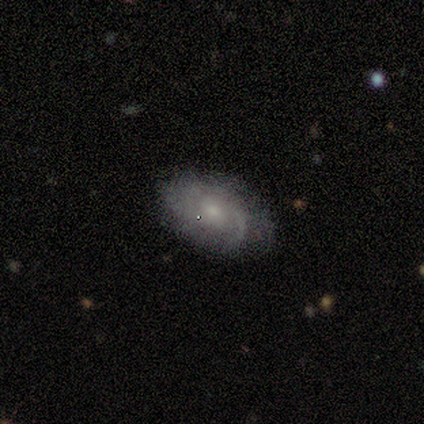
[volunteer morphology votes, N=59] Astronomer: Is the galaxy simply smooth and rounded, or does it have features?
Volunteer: featured or disk — 58% (runner-up: smooth, 36%).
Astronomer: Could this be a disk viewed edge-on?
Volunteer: no — 97%.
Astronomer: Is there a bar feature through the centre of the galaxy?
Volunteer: no — 76%.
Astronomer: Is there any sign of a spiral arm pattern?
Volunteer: yes — 97%.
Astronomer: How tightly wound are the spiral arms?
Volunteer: tight — 50% (runner-up: medium, 38%).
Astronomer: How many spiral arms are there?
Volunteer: can't tell — 53%.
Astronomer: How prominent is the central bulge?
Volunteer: moderate — 58% (runner-up: small, 33%).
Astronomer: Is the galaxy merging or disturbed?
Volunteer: none — 80%.